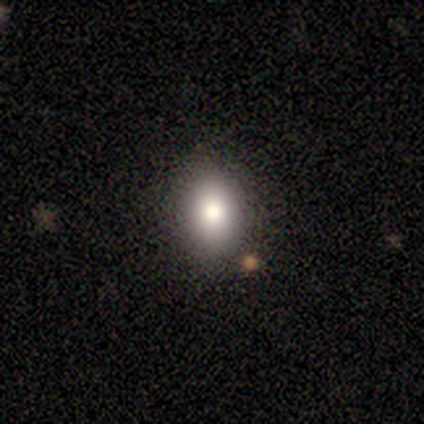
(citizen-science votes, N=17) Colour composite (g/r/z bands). It shows a smooth galaxy with no disk features (82%) that is in between round and cigar-shaped (79%). Merging: none (93%).